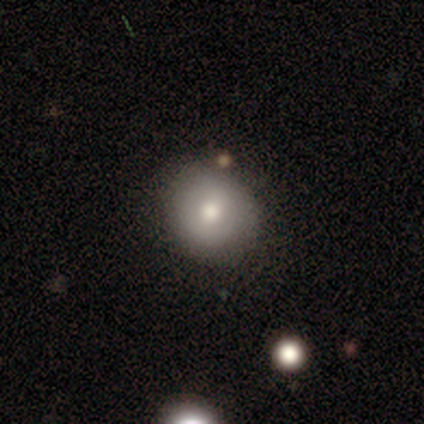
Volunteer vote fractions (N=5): Smooth or featured? smooth (80%)
How rounded? round (100%)
Merging? none (80%)